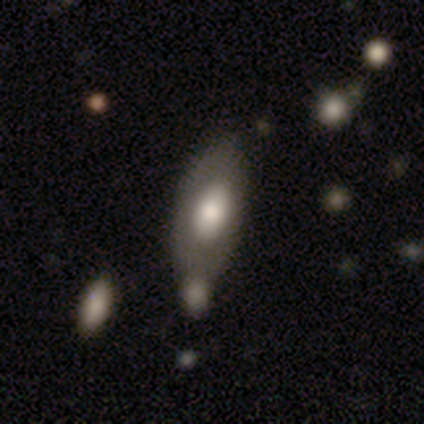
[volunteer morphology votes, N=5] This is likely a smooth galaxy (60%). How rounded: likely in between (67%). Merging: marginally none (40%, tied with minor disturbance).